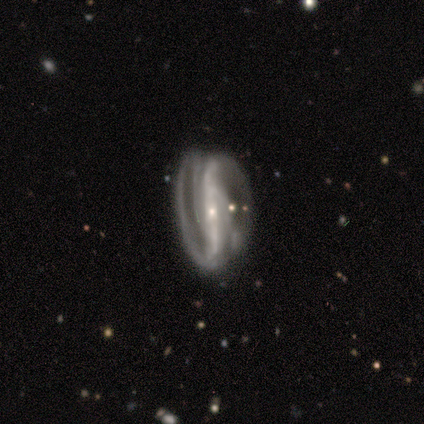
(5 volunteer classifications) featured or disk 100%, smooth 0%, star or artifact 0%. Down the decision tree: edge-on disk — no (100%); bar — strong (100%); spiral arms — yes (100%); spiral arm count — can't tell (60%); spiral winding — tight (60%); bulge size — small (80%); merging — none (60%).